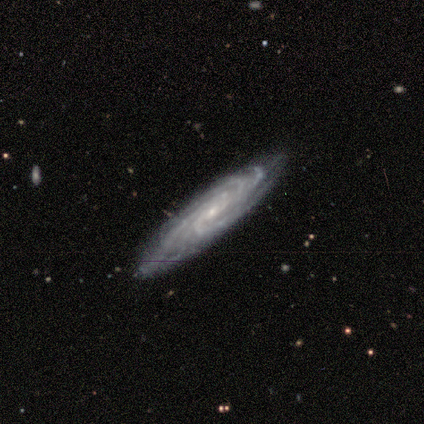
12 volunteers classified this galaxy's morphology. Smooth or featured? featured or disk (92%)
Edge-on disk? no (100%)
Bar? no (64%)
Spiral arms? yes (100%)
Spiral winding? tight (91%)
Spiral arm count? 4 (45%)
Bulge size? small (73%)
Merging? none (73%)